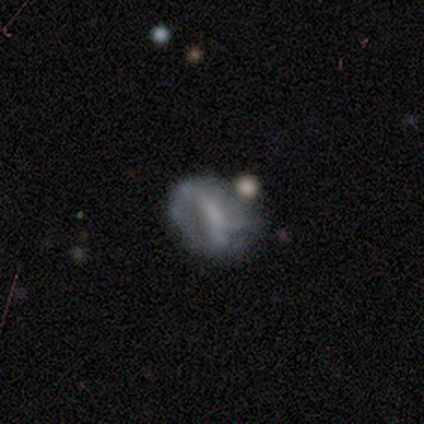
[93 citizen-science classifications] featured or disk 67%, smooth 20%, star or artifact 13%. Down the decision tree: edge-on disk — no (98%); bar — no (49%); spiral arms — no (66%); bulge size — none (59%); merging — none (42%).